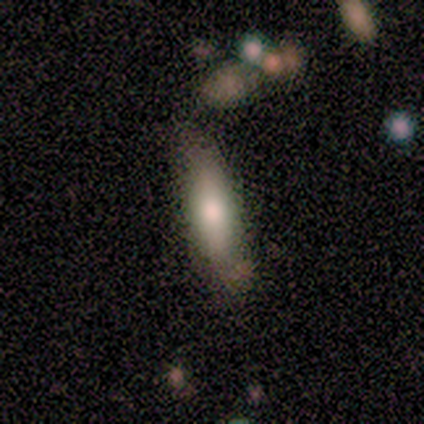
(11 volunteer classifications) Smooth or featured? 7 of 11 (64%) said smooth. How rounded? 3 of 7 (43%, tied with cigar-shaped) said in between. Merging? 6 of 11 (55%) said none.